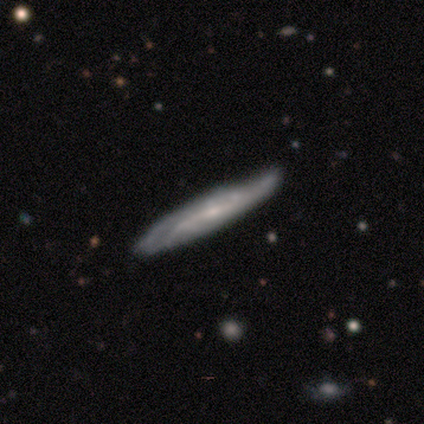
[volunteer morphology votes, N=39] Smooth or featured: featured or disk — 87% (smooth — 13%)
Edge-on disk: yes — 62% (no — 38%)
Edge-on bulge: none — 48% (rounded — 43%)
Merging: none — 51% (minor disturbance — 26%)